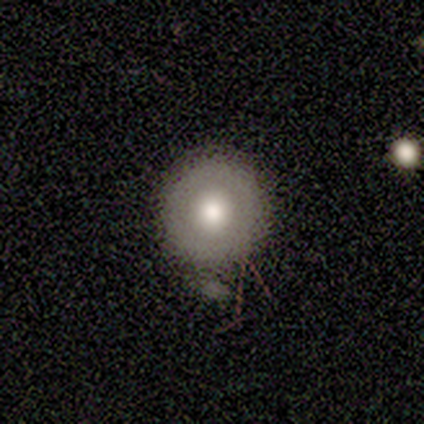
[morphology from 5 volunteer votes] Smooth or featured? 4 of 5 (80%) said smooth. How rounded? 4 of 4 (100%) said round. Merging? 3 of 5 (60%) said none.